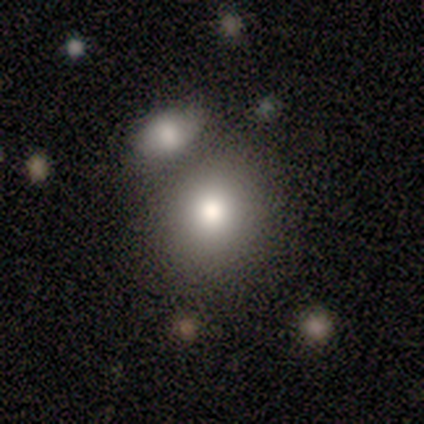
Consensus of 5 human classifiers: A smooth galaxy with no disk features (80%) that is round (100%).

Vote fractions:
- Smooth or featured? smooth: 80% / featured or disk: 20% / star or artifact: 0%
- How rounded? round: 100% / in between: 0% / cigar-shaped: 0%
- Merging? none: 40% (tied) / merger: 40% (tied) / minor disturbance: 20% / major disturbance: 0%